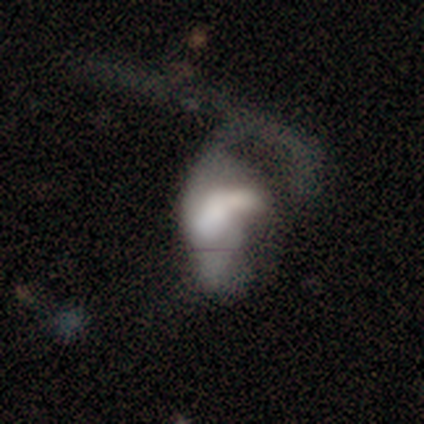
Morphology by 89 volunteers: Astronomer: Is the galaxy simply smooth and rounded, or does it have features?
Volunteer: featured or disk — 47% (runner-up: smooth, 46%).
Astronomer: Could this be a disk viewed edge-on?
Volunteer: no — 95%.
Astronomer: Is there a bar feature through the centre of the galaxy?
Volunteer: no — 60%.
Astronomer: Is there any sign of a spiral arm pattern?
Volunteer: no — 68%.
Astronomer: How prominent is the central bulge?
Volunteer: large — 45%.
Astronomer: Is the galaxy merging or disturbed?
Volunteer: major disturbance — 60%.